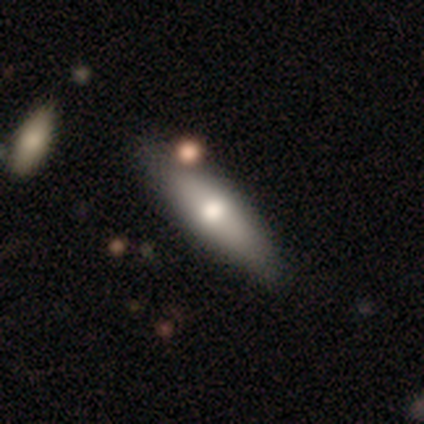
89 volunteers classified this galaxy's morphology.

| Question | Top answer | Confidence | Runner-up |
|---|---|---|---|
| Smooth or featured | smooth | 67% | featured or disk (26%) |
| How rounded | cigar-shaped | 68% | in between (30%) |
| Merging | none | 67% | minor disturbance (23%) |